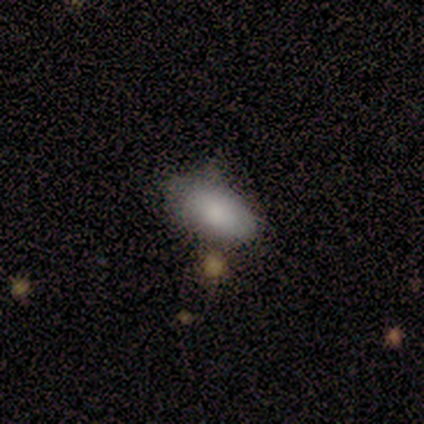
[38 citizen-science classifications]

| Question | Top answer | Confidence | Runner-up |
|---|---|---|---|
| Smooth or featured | smooth | 82% | featured or disk (16%) |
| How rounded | in between | 97% | cigar-shaped (3%) |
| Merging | none | 41% | minor disturbance (35%) |